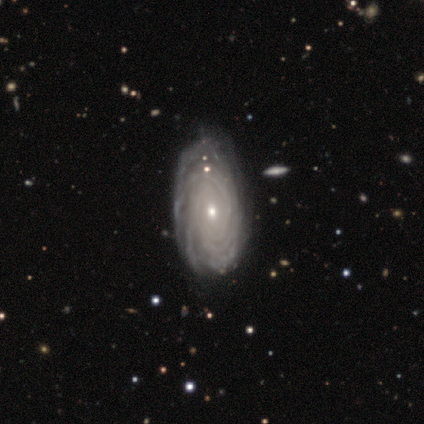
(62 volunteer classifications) Overall: featured or disk (87%). Edge-on disk: no (96%). Bar: no (79%). Spiral arms: yes (96%). Spiral arm count: can't tell (42%; more than 4 36%). Spiral winding: tight (80%). Bulge size: small (62%; moderate 38%). Merging: none (42%; minor disturbance 19%).